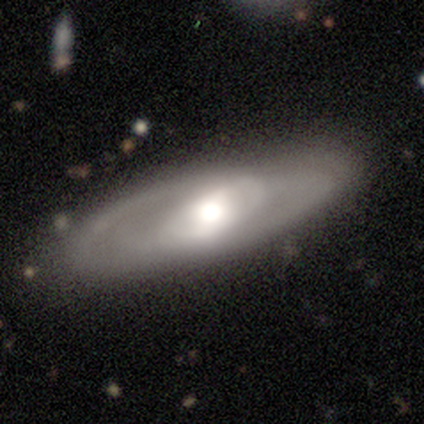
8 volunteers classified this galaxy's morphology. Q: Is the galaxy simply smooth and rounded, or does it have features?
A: featured or disk — 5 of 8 (62%).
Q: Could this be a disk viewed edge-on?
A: no — 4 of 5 (80%).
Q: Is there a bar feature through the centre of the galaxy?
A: no — 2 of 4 (50%).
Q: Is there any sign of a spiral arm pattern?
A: no — 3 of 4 (75%).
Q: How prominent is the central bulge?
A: moderate — 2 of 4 (50%).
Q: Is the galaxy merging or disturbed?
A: none — 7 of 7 (100%).